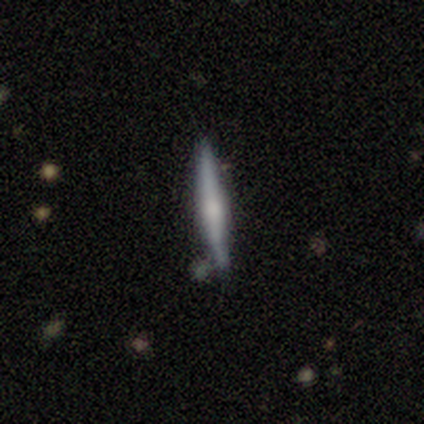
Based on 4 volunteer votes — A featured or disk galaxy (75%) viewed edge-on (100%) with a rounded central bulge (67%). Merging: none (50%, tied with minor disturbance).